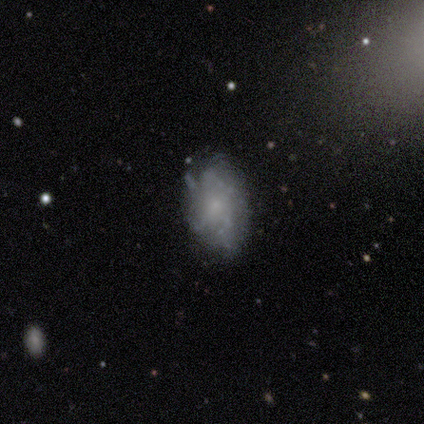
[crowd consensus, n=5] Smooth or featured?
  - featured or disk: 60% *
  - smooth: 40%
  - star or artifact: 0%
Edge-on disk?
  - no: 100% *
  - yes: 0%
Bar?
  - no: 100% *
  - strong: 0%
  - weak: 0%
Spiral arms?
  - no: 67% *
  - yes: 33%
Bulge size?
  - small: 67% *
  - none: 33%
  - dominant: 0%
  - large: 0%
  - moderate: 0%
Merging?
  - none: 80% *
  - minor disturbance: 20%
  - major disturbance: 0%
  - merger: 0%